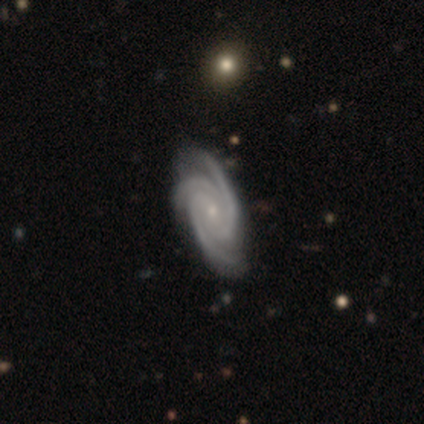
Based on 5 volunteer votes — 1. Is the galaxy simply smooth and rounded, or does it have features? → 100% featured or disk, 0% smooth, 0% star or artifact.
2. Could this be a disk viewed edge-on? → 100% no, 0% yes.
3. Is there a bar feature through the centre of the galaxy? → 100% weak, 0% strong, 0% no.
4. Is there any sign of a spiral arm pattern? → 100% yes, 0% no.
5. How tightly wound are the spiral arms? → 80% medium, 20% tight, 0% loose.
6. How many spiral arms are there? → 100% 3, 0% 1, 0% 2, 0% 4, 0% more than 4, 0% can't tell.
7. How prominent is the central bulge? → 40% moderate (tied), 40% small (tied), 20% none, 0% dominant, 0% large.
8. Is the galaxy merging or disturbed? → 80% none, 20% minor disturbance, 0% major disturbance, 0% merger.